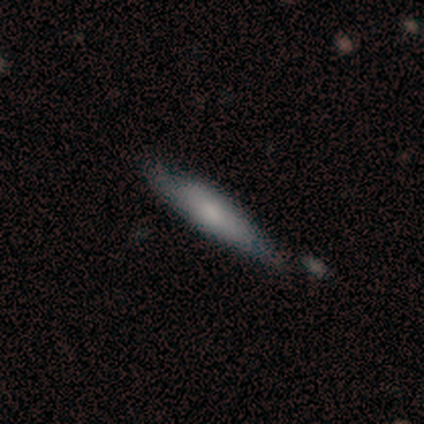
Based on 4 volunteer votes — Smooth or featured?
  - smooth: 100% *
  - featured or disk: 0%
  - star or artifact: 0%
How rounded?
  - cigar-shaped: 75% *
  - in between: 25%
  - round: 0%
Merging?
  - none: 75% *
  - merger: 25%
  - minor disturbance: 0%
  - major disturbance: 0%